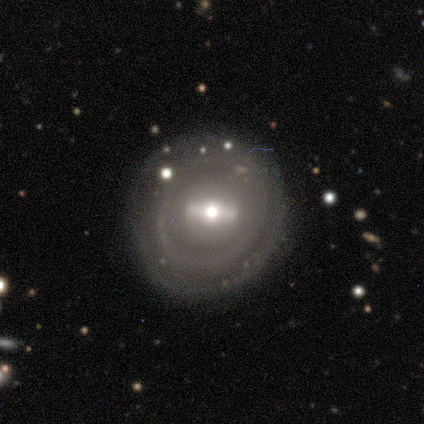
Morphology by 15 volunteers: smooth_or_featured: featured or disk (p=0.80) [alt: smooth p=0.20]
disk_edge_on: no (p=0.92) [alt: yes p=0.08]
bar: strong (p=0.64) [alt: weak p=0.18]
has_spiral_arms: yes (p=0.55) [alt: no p=0.45]
spiral_winding: tight (p=1.00)
spiral_arm_count: can't tell (p=0.67) [alt: 2 p=0.17]
bulge_size: moderate (p=0.36) [alt: small p=0.27]
merging: none (p=1.00)